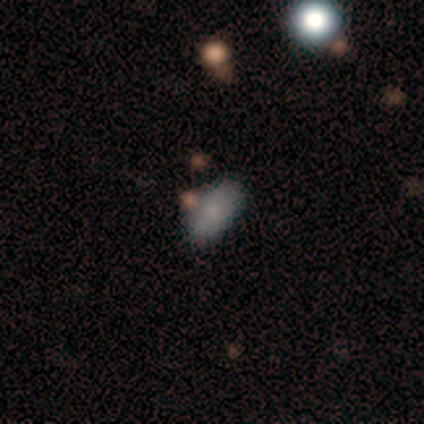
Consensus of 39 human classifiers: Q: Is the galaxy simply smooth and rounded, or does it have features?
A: smooth — 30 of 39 (77%).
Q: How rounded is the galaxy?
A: in between — 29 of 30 (97%).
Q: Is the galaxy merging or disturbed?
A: none — 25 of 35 (71%).